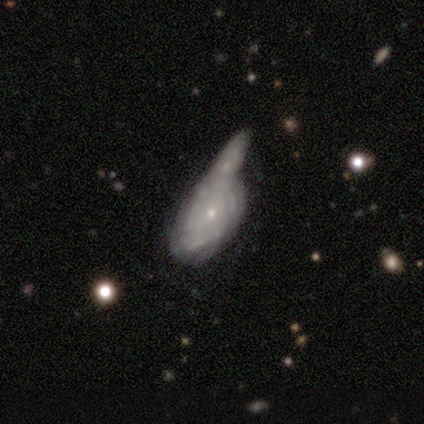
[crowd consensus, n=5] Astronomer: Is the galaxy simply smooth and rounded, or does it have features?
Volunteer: featured or disk — 80%.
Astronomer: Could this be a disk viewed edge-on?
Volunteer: no — 100%.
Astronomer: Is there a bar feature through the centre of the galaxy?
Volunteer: no — 75%.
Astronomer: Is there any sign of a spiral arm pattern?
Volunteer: yes — 75%.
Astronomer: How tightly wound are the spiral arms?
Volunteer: tight — 100%.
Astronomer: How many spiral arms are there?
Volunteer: can't tell — 67%.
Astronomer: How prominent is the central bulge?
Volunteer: small — 75%.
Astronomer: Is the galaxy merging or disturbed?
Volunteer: merger — 100%.